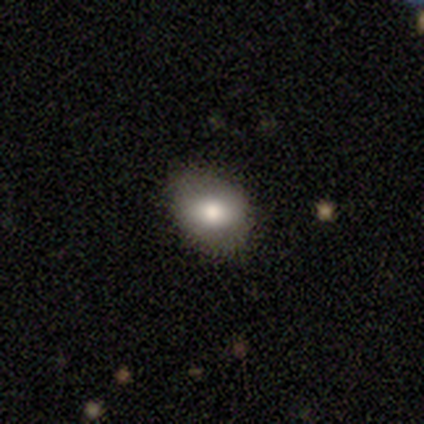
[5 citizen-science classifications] A smooth galaxy with no disk features (80%) that is in between round and cigar-shaped (75%). Merging: none (75%).